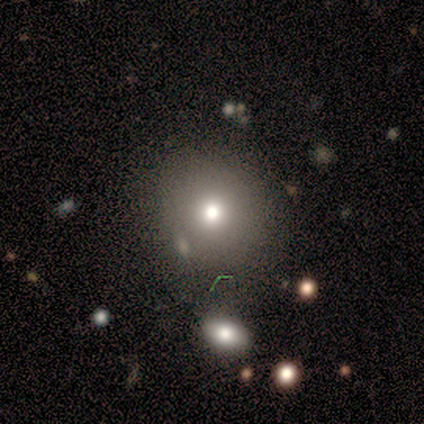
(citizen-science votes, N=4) smooth_or_featured: smooth (p=0.75) [alt: featured or disk p=0.25]
how_rounded: round (p=1.00)
merging: none (p=1.00)